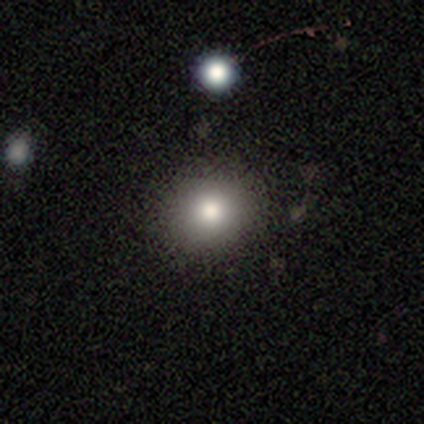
smooth 76%, star or artifact 16%, featured or disk 8%. Down the decision tree: how rounded — round (93%); merging — none (90%).